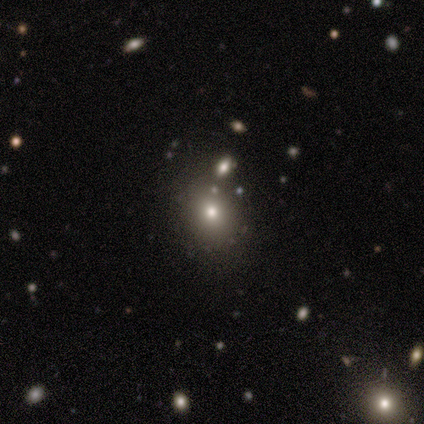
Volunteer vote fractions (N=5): Smooth or featured?
  - smooth: 60% *
  - featured or disk: 20%
  - star or artifact: 20%
How rounded?
  - round: 67% *
  - in between: 33%
  - cigar-shaped: 0%
Merging?
  - none: 75% *
  - major disturbance: 25%
  - minor disturbance: 0%
  - merger: 0%